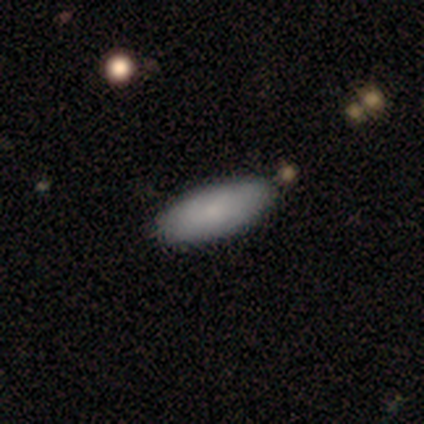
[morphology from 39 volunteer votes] Smooth or featured: smooth — 74% (featured or disk — 26%)
How rounded: in between — 76% (cigar-shaped — 24%)
Merging: none — 82% (minor disturbance — 13%)